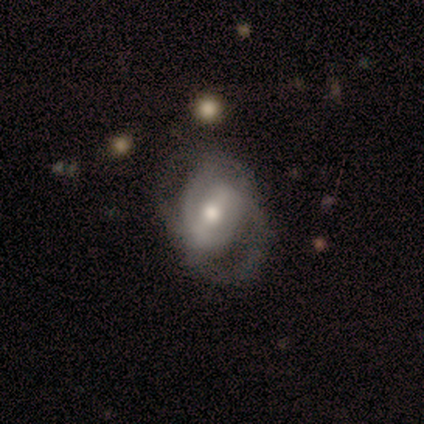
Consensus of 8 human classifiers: Q: Smooth or featured?
A: featured or disk (62%); runner-up: smooth (25%)
Q: Edge-on disk?
A: no (80%); runner-up: yes (20%)
Q: Bar?
A: weak (75%); runner-up: strong (25%)
Q: Spiral arms?
A: yes (75%); runner-up: no (25%)
Q: Spiral winding?
A: medium (67%); runner-up: tight (33%)
Q: Spiral arm count?
A: 2 (67%); runner-up: 3 (33%)
Q: Bulge size?
A: moderate (100%)
Q: Merging?
A: minor disturbance (43%); runner-up: none (29%)